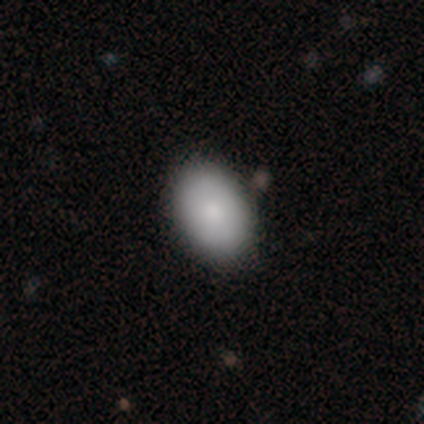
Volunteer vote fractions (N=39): This appears to be a smooth galaxy with no disk features (82%) that is in between round and cigar-shaped (81%). Merging: none (87%).